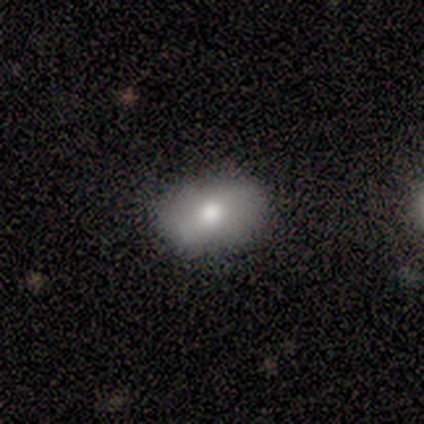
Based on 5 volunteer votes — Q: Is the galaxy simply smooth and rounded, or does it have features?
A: smooth — 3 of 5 (60%).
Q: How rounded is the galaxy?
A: in between — 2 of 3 (67%).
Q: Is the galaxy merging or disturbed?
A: none — 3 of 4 (75%).